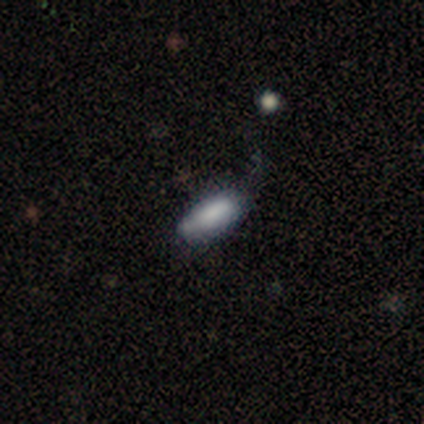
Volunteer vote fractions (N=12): Smooth or featured? 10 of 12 (83%) said smooth. How rounded? 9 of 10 (90%) said in between. Merging? 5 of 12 (42%, tied with minor disturbance) said none.